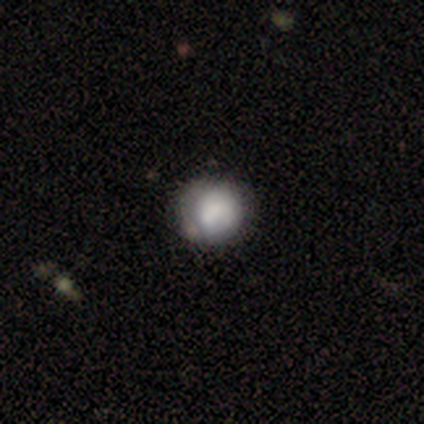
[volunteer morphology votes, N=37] Overall: smooth (76%). How rounded: round (93%). Merging: none (34%; minor disturbance 20%).